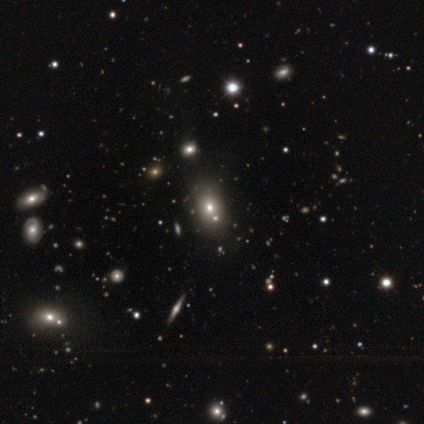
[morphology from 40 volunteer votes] smooth_or_featured: smooth (p=0.62) [alt: star or artifact p=0.23]
how_rounded: in between (p=0.88) [alt: round p=0.12]
merging: none (p=0.58) [alt: merger p=0.16]